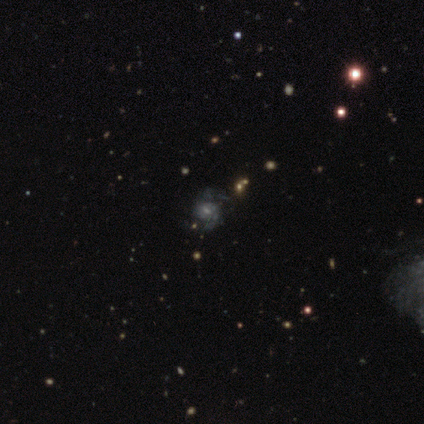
Volunteers were most divided on "bulge size" (2-way tie): moderate: 50%, small: 50%, dominant: 0%, large: 0%, none: 0%. More confident: edge-on disk — no (100%); spiral arms — yes (100%); smooth or featured — featured or disk (80%); spiral arm count — 2 (75%); bar — weak (62%); merging — none (50%); spiral winding — medium (50%).